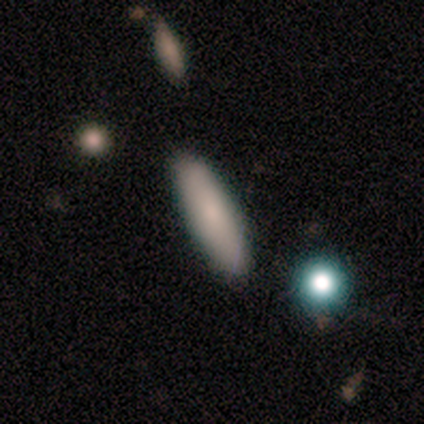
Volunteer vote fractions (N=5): Overall: smooth (100%). How rounded: in between (60%; cigar-shaped 40%). Merging: none (80%).